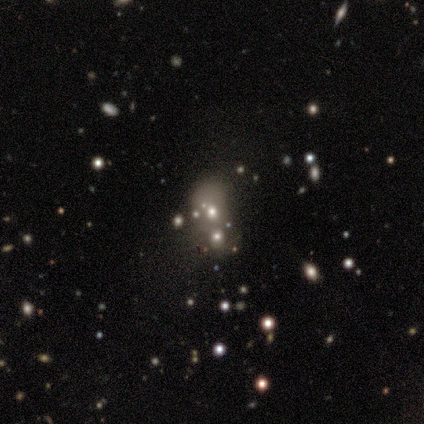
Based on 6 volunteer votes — Morphology: type=smooth (50%); roundness=round (67%); merging=merger (60%).